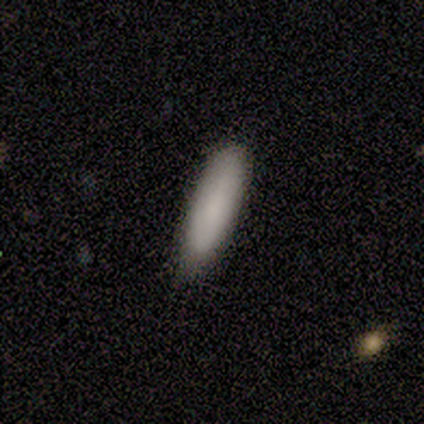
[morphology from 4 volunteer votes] smooth-or-featured: smooth: 50% | featured or disk: 25% | star or artifact: 25%
  how-rounded: in between: 50% (tied) | cigar-shaped: 50% (tied) | round: 0%
  merging: none: 100% | minor disturbance: 0% | major disturbance: 0% | merger: 0%